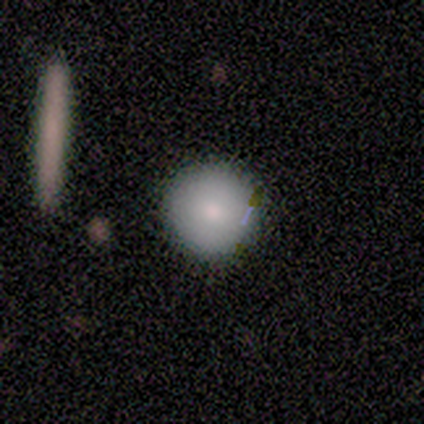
smooth_or_featured: smooth (p=1.00)
how_rounded: round (p=1.00)
merging: none (p=0.80) [alt: minor disturbance p=0.20]